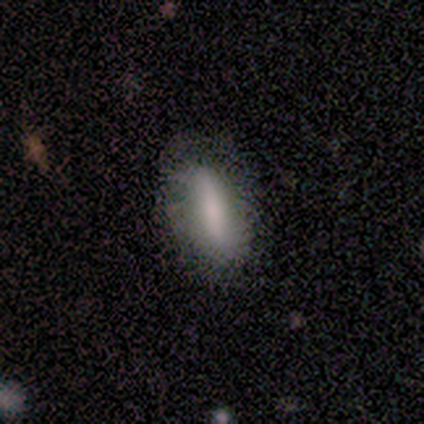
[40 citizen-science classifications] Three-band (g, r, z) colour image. It shows a smooth galaxy with no disk features (68%) that is in between round and cigar-shaped (67%). Merging: none (75%).